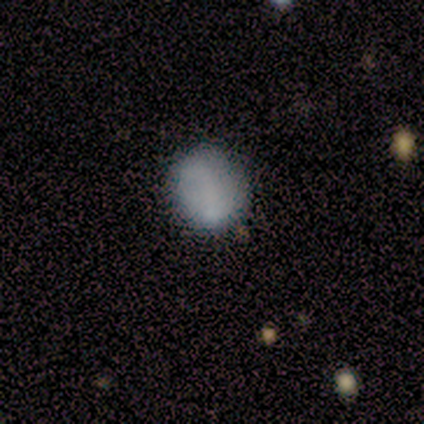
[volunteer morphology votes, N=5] Smooth or featured? 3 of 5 (60%) said smooth. How rounded? 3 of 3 (100%) said round. Merging? 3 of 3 (100%) said none.